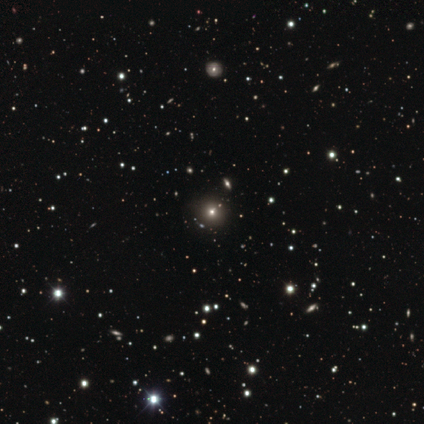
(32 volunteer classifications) Q: Smooth or featured?
A: smooth (53%); runner-up: star or artifact (31%)
Q: How rounded?
A: round (76%); runner-up: in between (24%)
Q: Merging?
A: none (91%); runner-up: minor disturbance (5%)